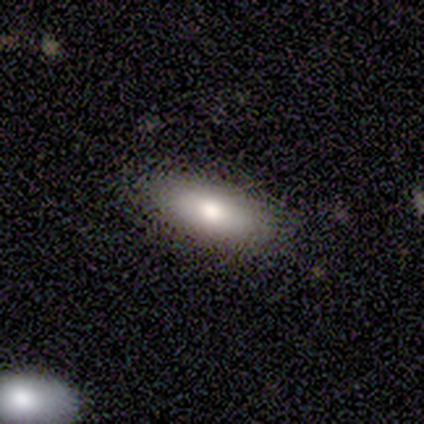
A smooth galaxy with no disk features (80%) that is in between round and cigar-shaped (100%). Merging: none (80%).